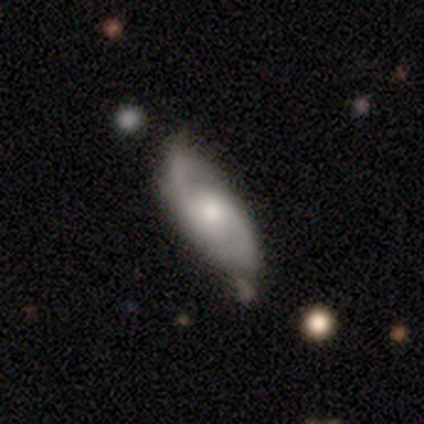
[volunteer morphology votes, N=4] Smooth or featured? 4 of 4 (100%) said featured or disk. Edge-on disk? 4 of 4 (100%) said no. Bar? 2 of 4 (50%, tied with no) said weak. Spiral arms? 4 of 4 (100%) said yes. Spiral winding? 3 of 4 (75%) said medium. Spiral arm count? 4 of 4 (100%) said 2. Bulge size? 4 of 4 (100%) said small. Merging? 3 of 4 (75%) said none.